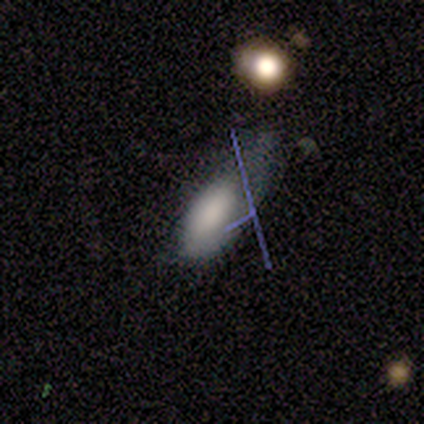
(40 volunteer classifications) This appears to be a smooth galaxy with no disk features (78%) that is in between round and cigar-shaped (77%). Merging: major disturbance (39%).